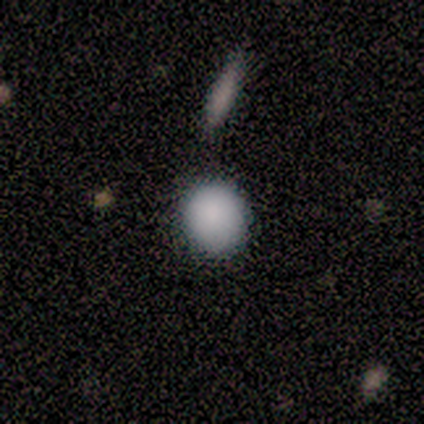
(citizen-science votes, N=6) smooth_or_featured: smooth (p=0.83) [alt: featured or disk p=0.17]
how_rounded: round (p=0.80) [alt: in between p=0.20]
merging: none (p=0.83) [alt: minor disturbance p=0.17]